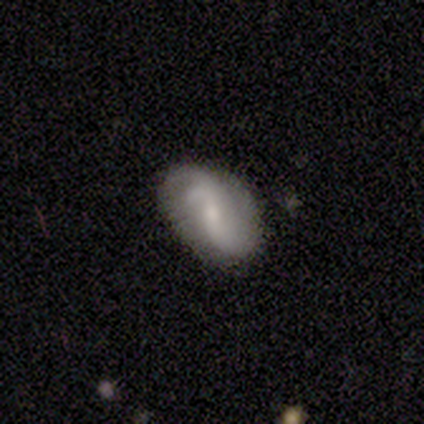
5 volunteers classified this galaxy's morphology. A featured or disk galaxy (100%) with a weak bar (60%), 2 (80%) loose (60%) spiral arms (100%) and a small central bulge (60%). Merging: none (40%, tied with minor disturbance).